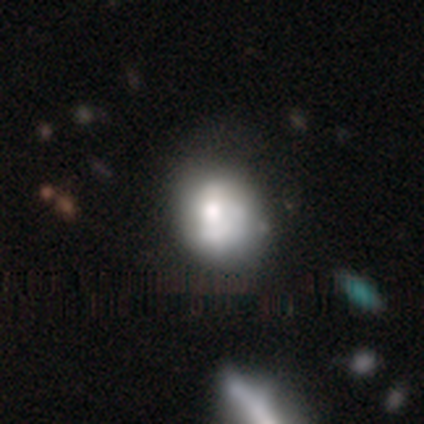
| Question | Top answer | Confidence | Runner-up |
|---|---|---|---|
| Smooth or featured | smooth | 47% | featured or disk (39%) |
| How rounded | round | 60% | in between (40%) |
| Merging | none | 53% | minor disturbance (22%) |